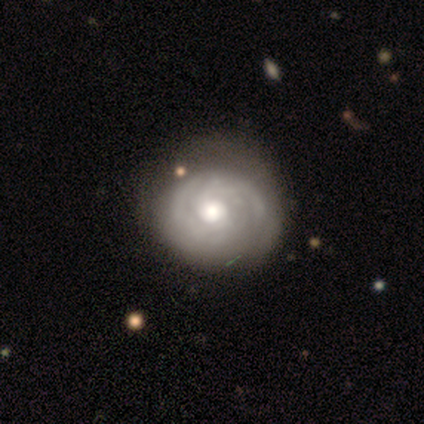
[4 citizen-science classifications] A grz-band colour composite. It shows a featured or disk galaxy (75%) with no bar (67%), tight (67%) spiral arms (100%) and a large central bulge (67%). Merging: none (100%).